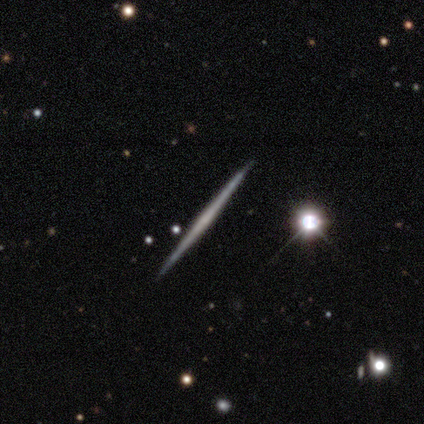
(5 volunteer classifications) Q: Smooth or featured?
A: featured or disk (60%); runner-up: smooth (20%)
Q: Edge-on disk?
A: yes (100%)
Q: Edge-on bulge?
A: none (100%)
Q: Merging?
A: none (75%); runner-up: minor disturbance (25%)